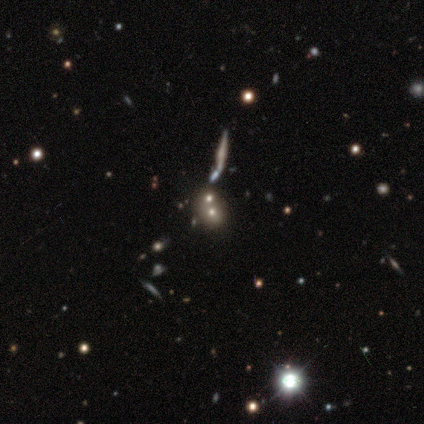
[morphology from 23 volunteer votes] A smooth galaxy with no disk features (57%) that is round (62%).

Vote fractions:
- Smooth or featured? smooth: 57% / star or artifact: 26% / featured or disk: 17%
- How rounded? round: 62% / in between: 31% / cigar-shaped: 8%
- Merging? none: 47% / merger: 41% / major disturbance: 12% / minor disturbance: 0%